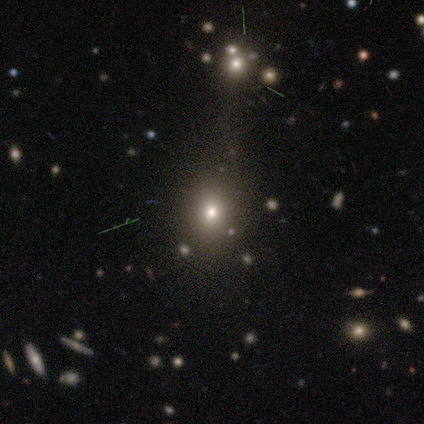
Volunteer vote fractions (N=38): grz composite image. It shows a smooth galaxy with no disk features (61%) that is round (61%). Merging: none (77%).